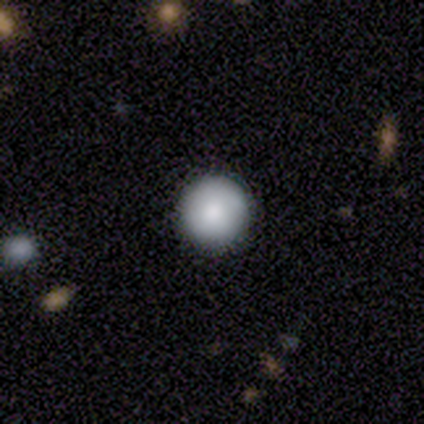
A smooth galaxy with no disk features (100%) that is round (100%).

Vote fractions:
- Smooth or featured? smooth: 100% / featured or disk: 0% / star or artifact: 0%
- How rounded? round: 100% / in between: 0% / cigar-shaped: 0%
- Merging? none: 80% / minor disturbance: 20% / major disturbance: 0% / merger: 0%